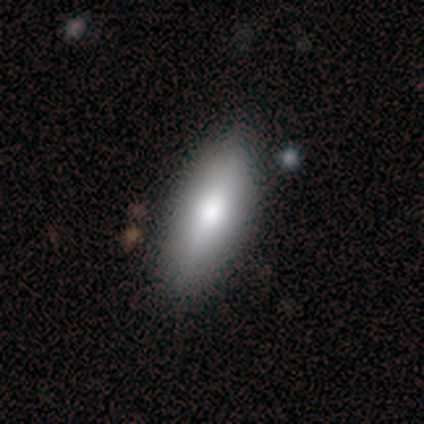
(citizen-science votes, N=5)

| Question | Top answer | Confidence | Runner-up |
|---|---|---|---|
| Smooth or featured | smooth | 100% | — |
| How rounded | in between | 60% | cigar-shaped (40%) |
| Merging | none | 100% | — |